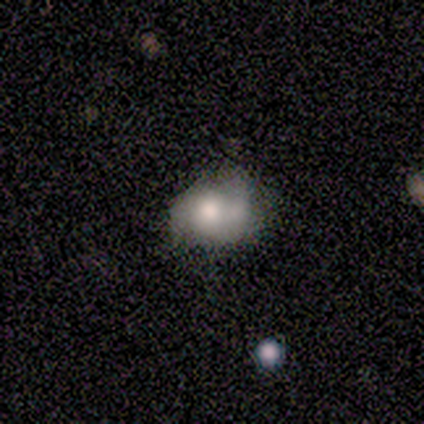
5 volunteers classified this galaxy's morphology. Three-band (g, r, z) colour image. It shows a smooth galaxy with no disk features (80%) that is round (100%). Merging: merger (60%).